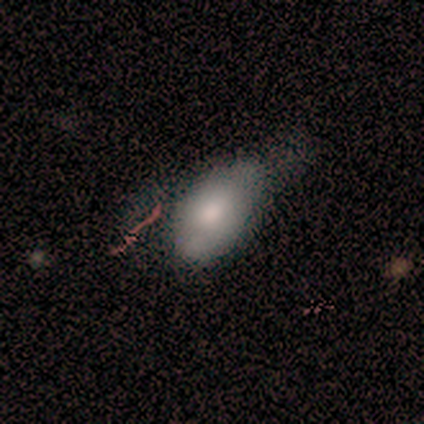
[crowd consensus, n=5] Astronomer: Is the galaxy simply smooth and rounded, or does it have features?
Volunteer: smooth — 40%, tied with featured or disk at 40%.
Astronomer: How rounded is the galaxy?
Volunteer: in between — 100%.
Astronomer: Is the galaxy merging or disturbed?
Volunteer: minor disturbance — 50%, tied with major disturbance at 50%.